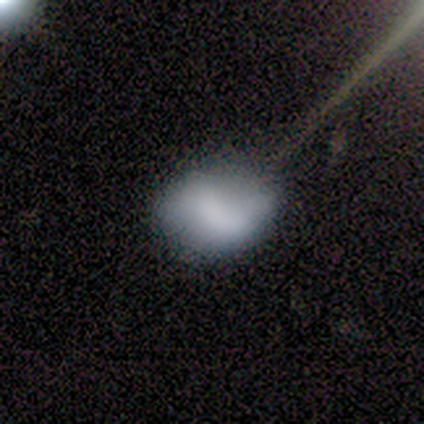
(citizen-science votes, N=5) Volunteers were most divided on "merging": none: 60%, minor disturbance: 40%, major disturbance: 0%, merger: 0%. More confident: how rounded — in between (100%); smooth or featured — smooth (80%).